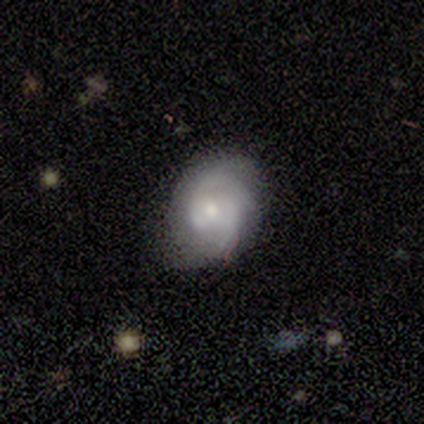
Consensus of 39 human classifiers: Q: Smooth or featured?
A: featured or disk (82%); runner-up: smooth (15%)
Q: Edge-on disk?
A: no (94%); runner-up: yes (6%)
Q: Bar?
A: no (73%); runner-up: weak (27%)
Q: Spiral arms?
A: yes (97%); runner-up: no (3%)
Q: Spiral winding?
A: medium (48%); runner-up: tight (45%)
Q: Spiral arm count?
A: 2 (55%); runner-up: 3 (21%)
Q: Bulge size?
A: moderate (67%); runner-up: small (27%)
Q: Merging?
A: none (63%); runner-up: minor disturbance (21%)